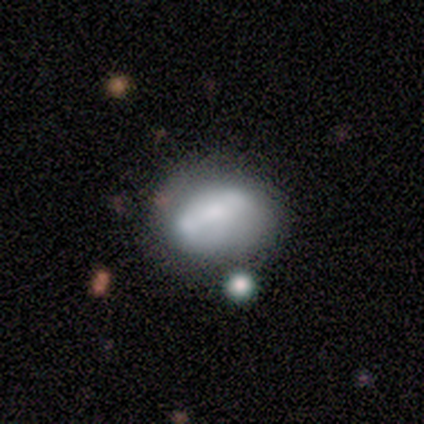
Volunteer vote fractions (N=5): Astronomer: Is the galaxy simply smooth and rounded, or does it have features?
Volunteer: featured or disk — 80%.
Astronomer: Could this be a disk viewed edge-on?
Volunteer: yes — 50%, tied with no at 50%.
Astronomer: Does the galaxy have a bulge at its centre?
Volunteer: rounded — 100%.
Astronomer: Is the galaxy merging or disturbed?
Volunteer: none — 60%.